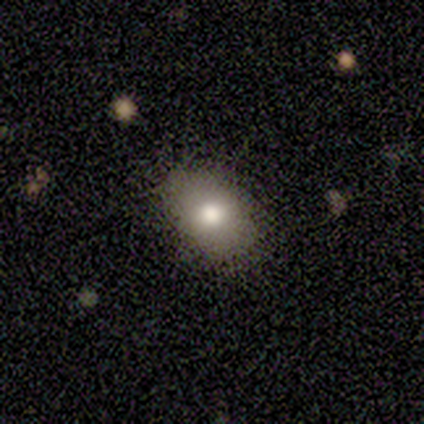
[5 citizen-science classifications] smooth_or_featured: smooth (p=0.80) [alt: star or artifact p=0.20]
how_rounded: in between (p=1.00)
merging: none (p=1.00)